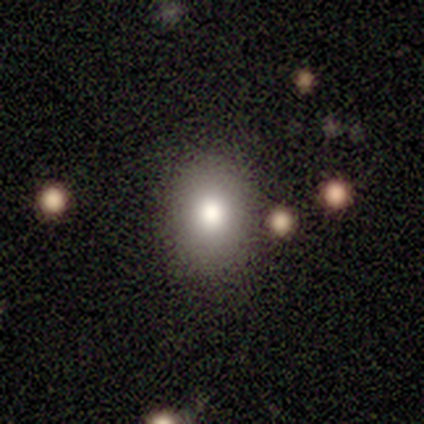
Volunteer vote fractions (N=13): A smooth galaxy with no disk features (77%) that is in between round and cigar-shaped (90%).

Vote fractions:
- Smooth or featured? smooth: 77% / star or artifact: 15% / featured or disk: 8%
- How rounded? in between: 90% / round: 10% / cigar-shaped: 0%
- Merging? none: 73% / minor disturbance: 18% / merger: 9% / major disturbance: 0%